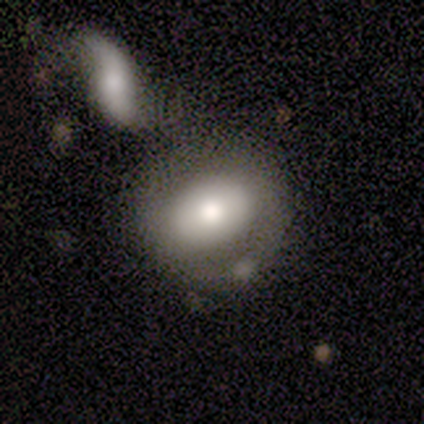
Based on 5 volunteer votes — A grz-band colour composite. It shows a smooth galaxy with no disk features (60%) that is in between round and cigar-shaped (67%). Merging: none (40%, tied with merger).